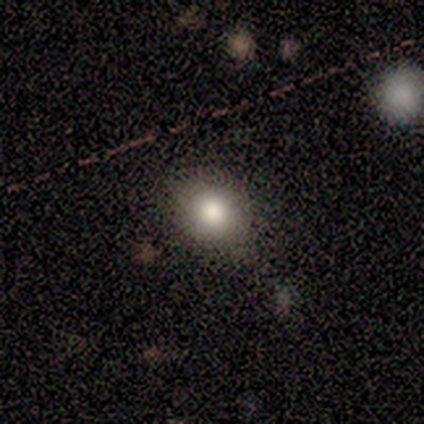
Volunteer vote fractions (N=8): This appears to be a smooth galaxy with no disk features (88%) that is round (71%). Merging: none (86%).